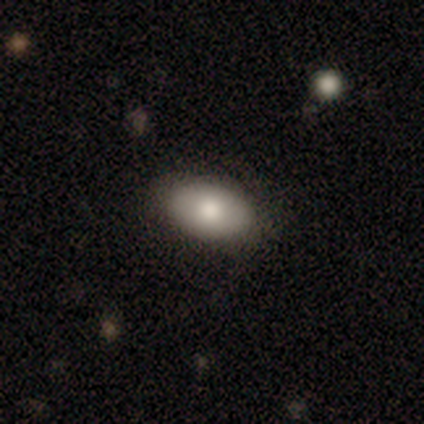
This appears to be a smooth galaxy with no disk features (100%) that is in between round and cigar-shaped (100%). Merging: none (83%).